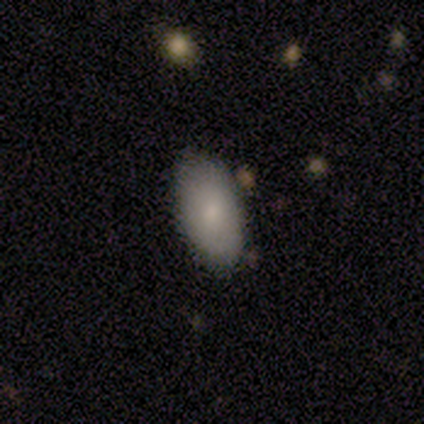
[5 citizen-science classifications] This appears to be a smooth galaxy with no disk features (80%) that is in between round and cigar-shaped (100%). Merging: none (80%).